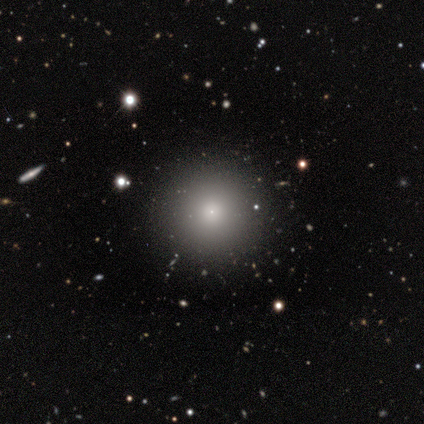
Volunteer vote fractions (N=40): Q: Smooth or featured?
A: smooth (75%); runner-up: star or artifact (15%)
Q: How rounded?
A: round (100%)
Q: Merging?
A: none (94%); runner-up: major disturbance (6%)